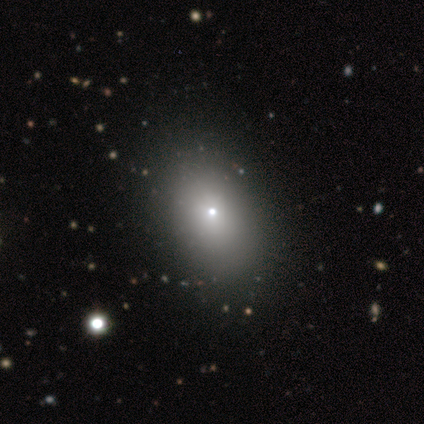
Smooth or featured? smooth (80%)
How rounded? in between (100%)
Merging? none (75%)